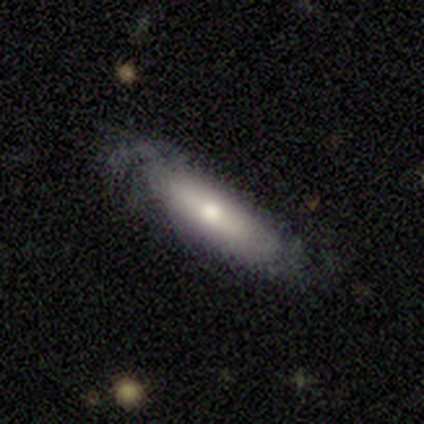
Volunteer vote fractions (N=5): Volunteers were most divided on "merging" (2-way tie): none: 40%, minor disturbance: 40%, major disturbance: 20%, merger: 0%. More confident: how rounded — cigar-shaped (67%); smooth or featured — smooth (60%).